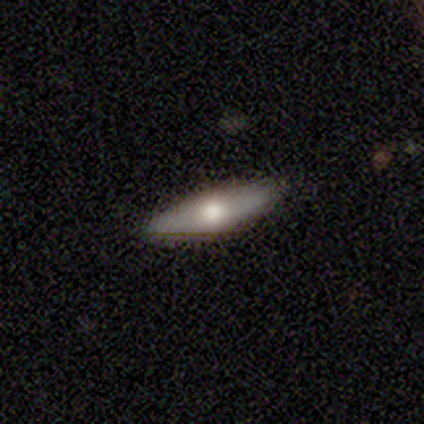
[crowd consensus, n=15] Q: Smooth or featured?
A: smooth (60%); runner-up: featured or disk (40%)
Q: How rounded?
A: cigar-shaped (56%); runner-up: in between (44%)
Q: Merging?
A: none (100%)